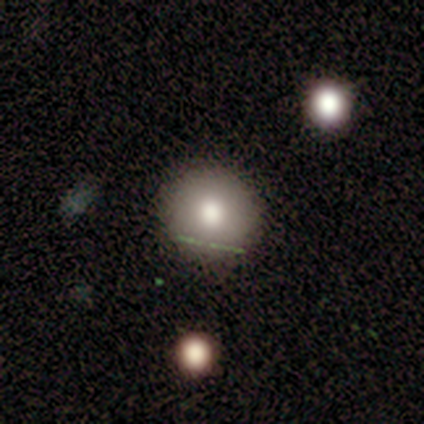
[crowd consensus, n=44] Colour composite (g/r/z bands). It shows a smooth galaxy with no disk features (77%) that is round (94%). Merging: none (87%).